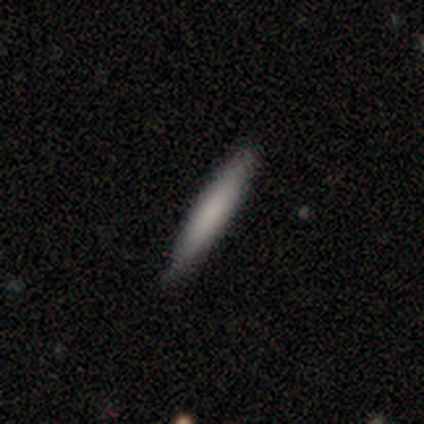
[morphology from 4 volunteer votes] smooth 50% (tied), featured or disk 50% (tied), star or artifact 0%. Down the decision tree: how rounded — cigar-shaped (100%); merging — none (100%).